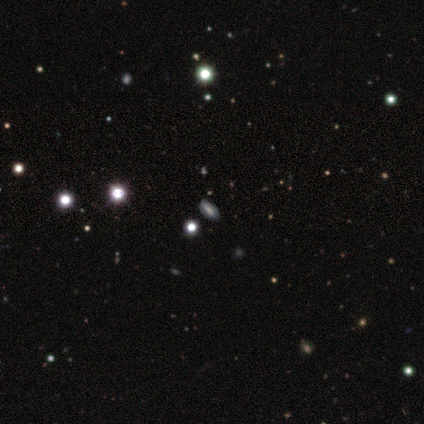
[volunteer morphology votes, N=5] Smooth or featured? 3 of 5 (60%) said smooth. How rounded? 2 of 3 (67%) said in between. Merging? 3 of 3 (100%) said none.